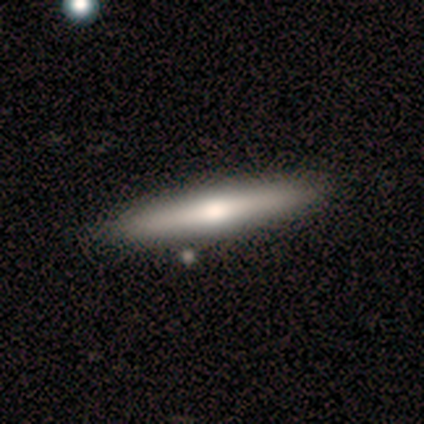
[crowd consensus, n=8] Q: Smooth or featured?
A: smooth (62%); runner-up: featured or disk (38%)
Q: How rounded?
A: cigar-shaped (100%)
Q: Merging?
A: none (75%); runner-up: minor disturbance (25%)